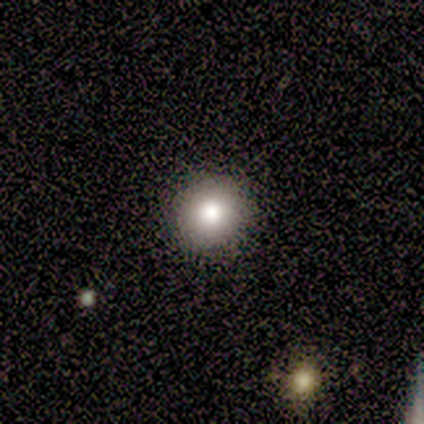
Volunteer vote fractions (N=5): Morphology: type=smooth (60%); roundness=round (100%); merging=none (100%).